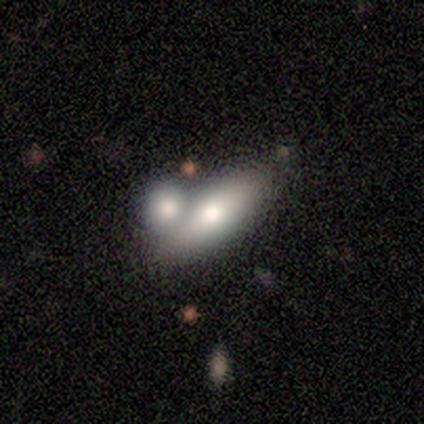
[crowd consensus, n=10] Morphology: type=featured or disk (50%); edge-on=yes (60%); edge-on bulge=rounded (100%); merging=merger (67%).